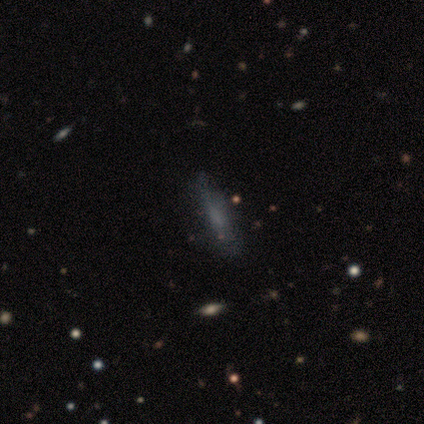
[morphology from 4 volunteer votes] A star or artifact, not a galaxy (50%).

Vote fractions:
- Smooth or featured? star or artifact: 50% / smooth: 25% / featured or disk: 25%